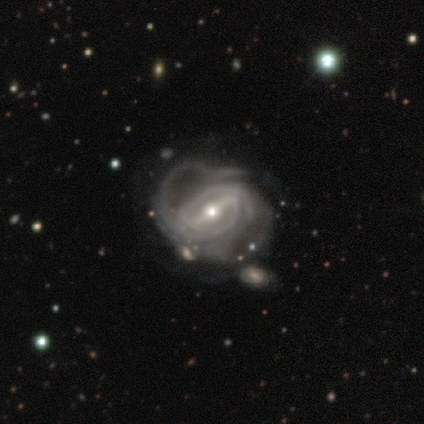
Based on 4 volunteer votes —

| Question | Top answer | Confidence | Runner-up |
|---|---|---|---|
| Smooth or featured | featured or disk | 100% | — |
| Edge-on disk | no | 100% | — |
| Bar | strong | 50% | weak (25%) |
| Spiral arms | yes | 100% | — |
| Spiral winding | tight | 50% | tied: medium (50%) |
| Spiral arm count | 2 | 50% | tied: 4 (50%) |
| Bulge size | moderate | 50% | tied: small (50%) |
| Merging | none | 50% | tied: minor disturbance (50%) |